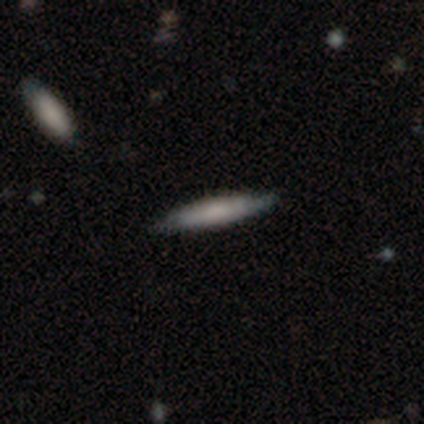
Q: Smooth or featured?
A: smooth (54%); runner-up: featured or disk (41%)
Q: How rounded?
A: cigar-shaped (95%); runner-up: in between (5%)
Q: Merging?
A: none (81%); runner-up: minor disturbance (16%)